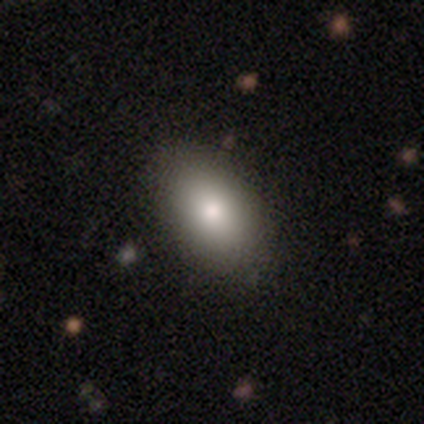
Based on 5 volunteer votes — Smooth or featured?
  - smooth: 60% *
  - featured or disk: 40%
  - star or artifact: 0%
How rounded?
  - in between: 100% *
  - round: 0%
  - cigar-shaped: 0%
Merging?
  - none: 100% *
  - minor disturbance: 0%
  - major disturbance: 0%
  - merger: 0%